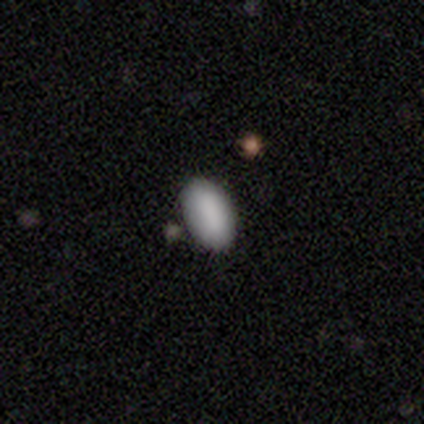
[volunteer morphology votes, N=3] A smooth galaxy with no disk features (100%) that is in between round and cigar-shaped (100%).

Vote fractions:
- Smooth or featured? smooth: 100% / featured or disk: 0% / star or artifact: 0%
- How rounded? in between: 100% / round: 0% / cigar-shaped: 0%
- Merging? none: 100% / minor disturbance: 0% / major disturbance: 0% / merger: 0%